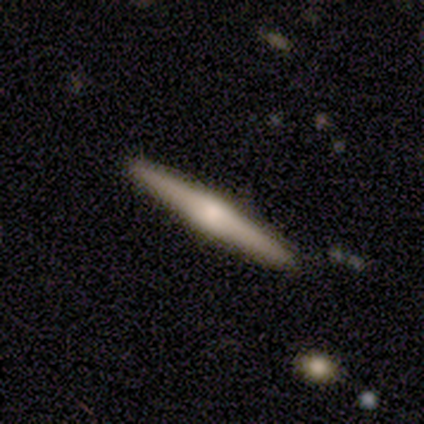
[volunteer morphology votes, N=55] Q: Smooth or featured?
A: featured or disk (71%); runner-up: smooth (25%)
Q: Edge-on disk?
A: yes (100%)
Q: Edge-on bulge?
A: rounded (79%); runner-up: boxy (15%)
Q: Merging?
A: none (96%); runner-up: minor disturbance (4%)